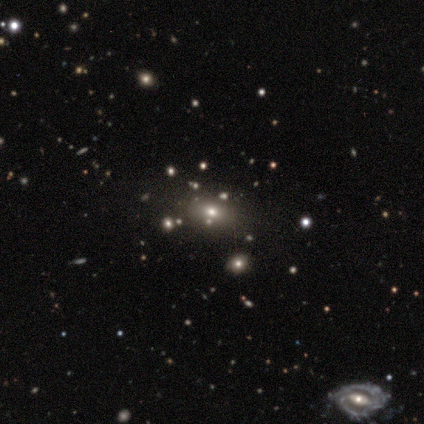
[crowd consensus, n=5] smooth-or-featured: smooth: 60% | featured or disk: 20% | star or artifact: 20%
  how-rounded: in between: 100% | round: 0% | cigar-shaped: 0%
  merging: none: 50% | minor disturbance: 25% | merger: 25% | major disturbance: 0%